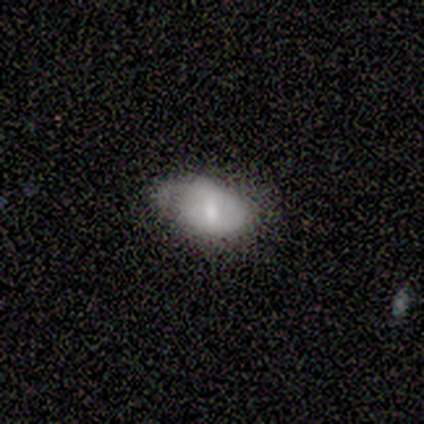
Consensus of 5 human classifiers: smooth_or_featured: smooth (p=0.60) [alt: featured or disk p=0.20]
how_rounded: in between (p=1.00)
merging: none (p=0.50) [alt: minor disturbance p=0.25]